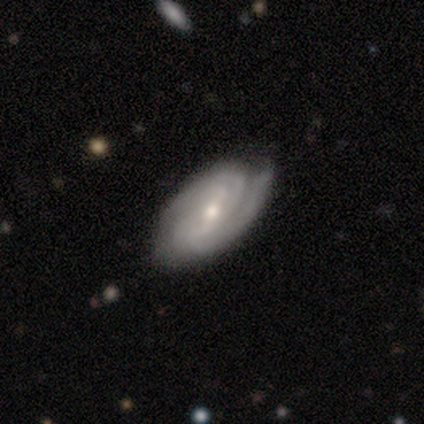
featured or disk 89%, smooth 5%, star or artifact 5%. Down the decision tree: edge-on disk — no (91%); bar — weak (71%); spiral arms — yes (100%); spiral arm count — 2 (39%); spiral winding — tight (52%); bulge size — moderate (58%); merging — none (72%).